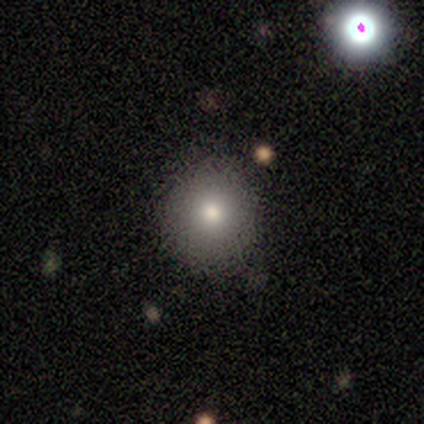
Smooth or featured: smooth — 80% (featured or disk — 20%)
How rounded: round — 100%
Merging: none — 100%